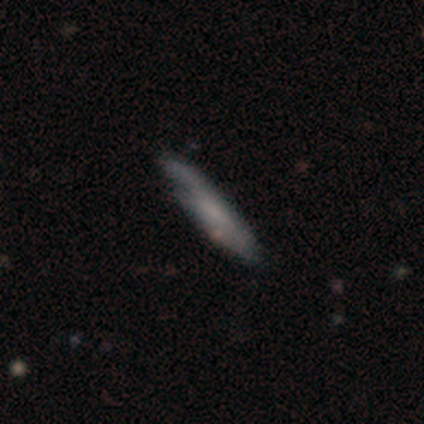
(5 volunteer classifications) Volunteers were most divided on "edge-on disk" (2-way tie): yes: 50%, no: 50%. More confident: edge-on bulge — none (100%); smooth or featured — featured or disk (80%); merging — minor disturbance (60%).